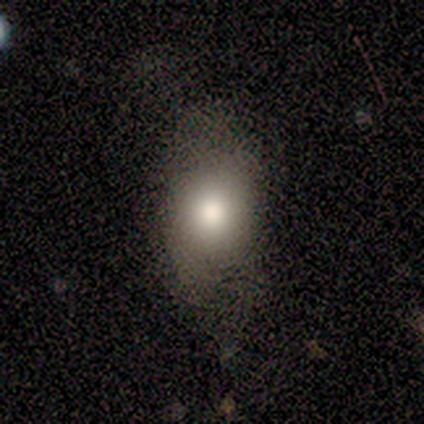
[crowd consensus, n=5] This appears to be a smooth galaxy with no disk features (100%) that is in between round and cigar-shaped (80%). Merging: none (40%, tied with minor disturbance).